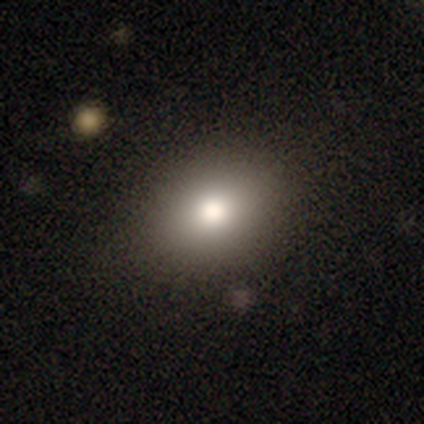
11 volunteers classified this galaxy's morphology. A smooth galaxy with no disk features (91%) that is round (50%, tied with in between). Merging: none (80%).